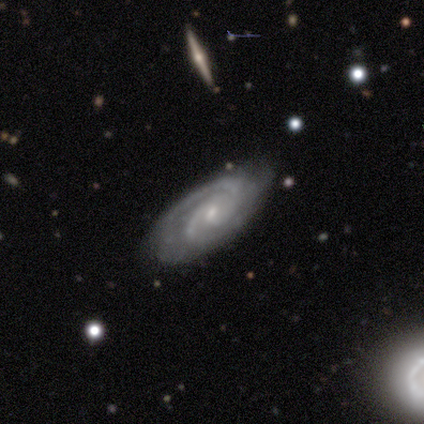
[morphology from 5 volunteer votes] This appears to be a featured or disk galaxy (100%) with a weak bar (75%), 2 (75%) tight (75%) spiral arms (100%) and a small central bulge (100%). Merging: minor disturbance (60%).